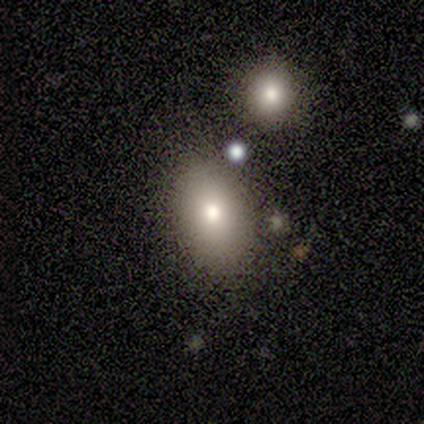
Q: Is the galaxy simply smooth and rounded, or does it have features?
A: smooth — 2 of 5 (40%, tied with featured or disk).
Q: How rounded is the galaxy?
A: in between — 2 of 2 (100%).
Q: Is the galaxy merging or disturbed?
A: none — 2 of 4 (50%).